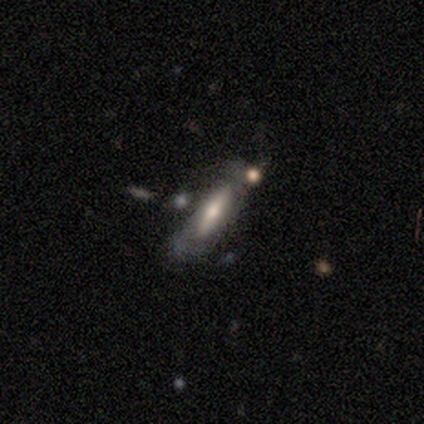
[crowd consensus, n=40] A featured or disk galaxy (50%) viewed edge-on (80%) with no central bulge (44%).

Vote fractions:
- Smooth or featured? featured or disk: 50% / smooth: 40% / star or artifact: 10%
- Edge-on disk? yes: 80% / no: 20%
- Edge-on bulge? none: 44% / rounded: 38% / boxy: 19%
- Merging? none: 42% / major disturbance: 28% / merger: 17% / minor disturbance: 14%